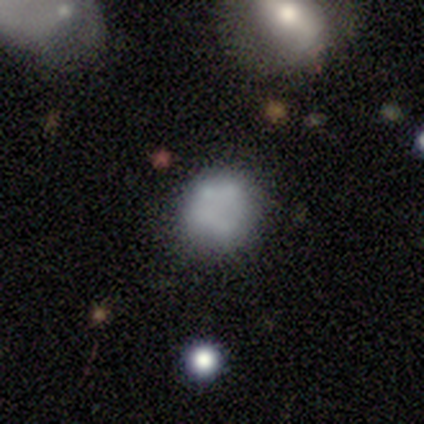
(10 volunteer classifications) Smooth or featured?
  - featured or disk: 90% *
  - smooth: 10%
  - star or artifact: 0%
Edge-on disk?
  - no: 100% *
  - yes: 0%
Bar?
  - no: 100% *
  - strong: 0%
  - weak: 0%
Spiral arms?
  - no: 100% *
  - yes: 0%
Bulge size?
  - none: 78% *
  - moderate: 22%
  - dominant: 0%
  - large: 0%
  - small: 0%
Merging?
  - none: 70% *
  - minor disturbance: 10%
  - major disturbance: 10%
  - merger: 10%